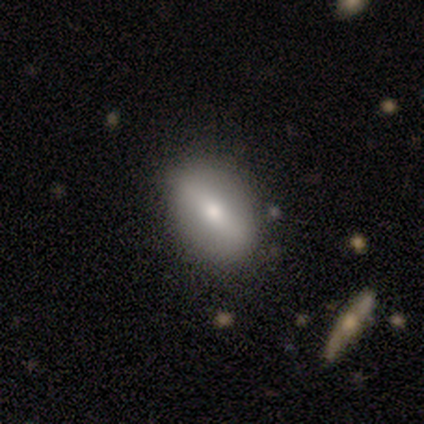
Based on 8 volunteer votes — Smooth or featured: smooth — 75% (featured or disk — 25%)
How rounded: in between — 100%
Merging: none — 75% (minor disturbance — 25%)